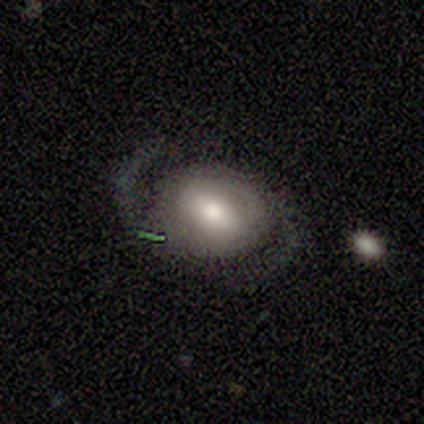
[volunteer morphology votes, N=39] Smooth or featured?
  - featured or disk: 77% *
  - smooth: 23%
  - star or artifact: 0%
Edge-on disk?
  - no: 93% *
  - yes: 7%
Bar?
  - strong: 39% *
  - weak: 36%
  - no: 25%
Spiral arms?
  - yes: 93% *
  - no: 7%
Spiral winding?
  - medium: 58% *
  - tight: 27%
  - loose: 15%
Spiral arm count?
  - 2: 96% *
  - can't tell: 4%
  - 1: 0%
  - 3: 0%
  - 4: 0%
  - more than 4: 0%
Bulge size?
  - moderate: 54% *
  - small: 29%
  - large: 18%
  - dominant: 0%
  - none: 0%
Merging?
  - none: 69% *
  - minor disturbance: 21%
  - major disturbance: 10%
  - merger: 0%